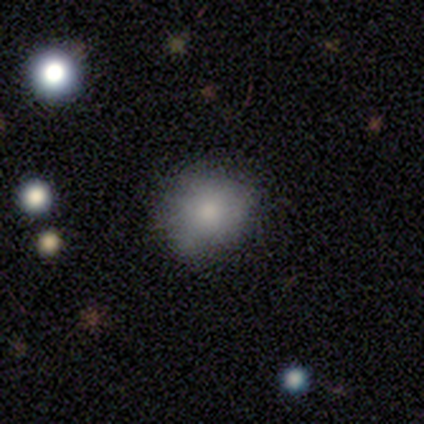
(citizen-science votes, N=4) Q: Smooth or featured?
A: smooth (100%)
Q: How rounded?
A: round (100%)
Q: Merging?
A: none (50%); tied with: minor disturbance (50%)